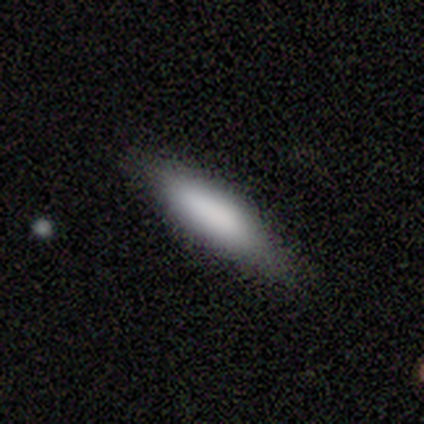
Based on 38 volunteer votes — This appears to be a smooth galaxy with no disk features (79%) that is cigar-shaped (73%). Merging: none (87%).